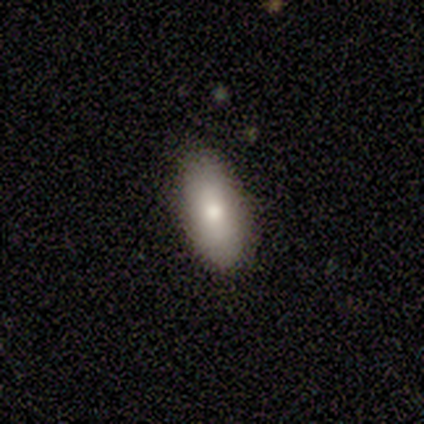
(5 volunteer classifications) Smooth or featured?
  - smooth: 100% *
  - featured or disk: 0%
  - star or artifact: 0%
How rounded?
  - in between: 100% *
  - round: 0%
  - cigar-shaped: 0%
Merging?
  - none: 100% *
  - minor disturbance: 0%
  - major disturbance: 0%
  - merger: 0%